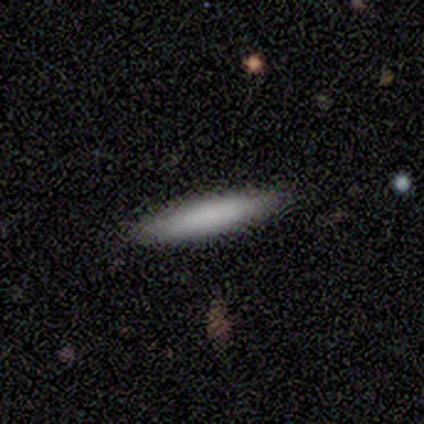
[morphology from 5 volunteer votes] Smooth or featured?
  - smooth: 80% *
  - featured or disk: 20%
  - star or artifact: 0%
How rounded?
  - cigar-shaped: 100% *
  - round: 0%
  - in between: 0%
Merging?
  - none: 100% *
  - minor disturbance: 0%
  - major disturbance: 0%
  - merger: 0%